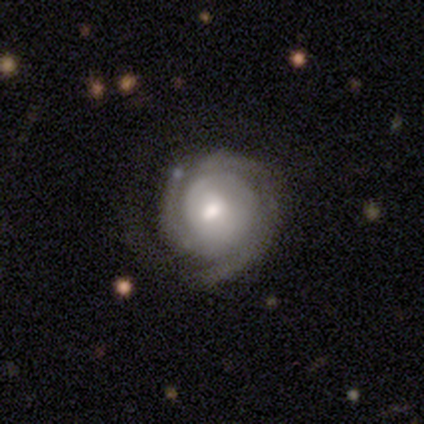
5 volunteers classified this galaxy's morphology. Smooth or featured? featured or disk (100%)
Edge-on disk? no (100%)
Bar? weak (60%)
Spiral arms? yes (100%)
Spiral winding? tight (60%)
Spiral arm count? can't tell (60%)
Bulge size? moderate (80%)
Merging? none (100%)